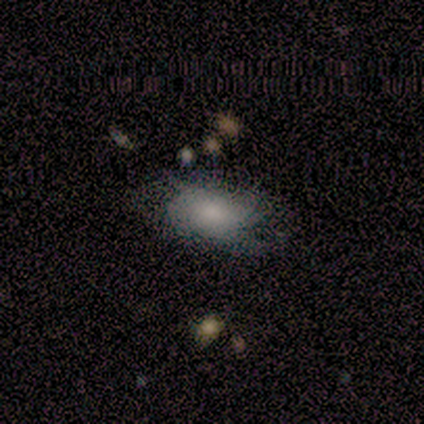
Morphology: type=smooth (50%); roundness=in between (100%); merging=none (33%, tied with minor disturbance and merger).